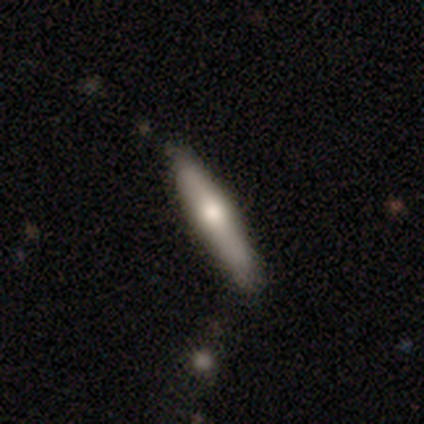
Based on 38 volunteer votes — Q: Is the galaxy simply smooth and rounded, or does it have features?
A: smooth — 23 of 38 (61%).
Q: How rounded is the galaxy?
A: cigar-shaped — 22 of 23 (96%).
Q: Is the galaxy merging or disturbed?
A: none — 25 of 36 (69%).